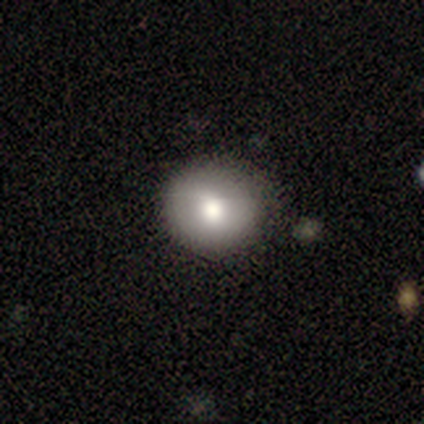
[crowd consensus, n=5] Smooth or featured? smooth (60%)
How rounded? round (100%)
Merging? none (80%)